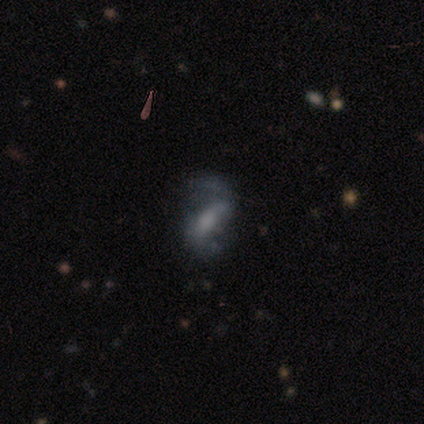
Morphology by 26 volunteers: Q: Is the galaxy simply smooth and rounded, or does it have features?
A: featured or disk — 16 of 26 (62%).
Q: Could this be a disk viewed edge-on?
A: no — 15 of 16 (94%).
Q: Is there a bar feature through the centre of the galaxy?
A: weak — 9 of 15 (60%).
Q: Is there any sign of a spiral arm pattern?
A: yes — 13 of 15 (87%).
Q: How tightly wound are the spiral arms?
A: loose — 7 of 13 (54%).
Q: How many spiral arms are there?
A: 2 — 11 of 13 (85%).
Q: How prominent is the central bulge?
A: moderate — 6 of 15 (40%).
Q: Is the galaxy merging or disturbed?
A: minor disturbance — 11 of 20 (55%).